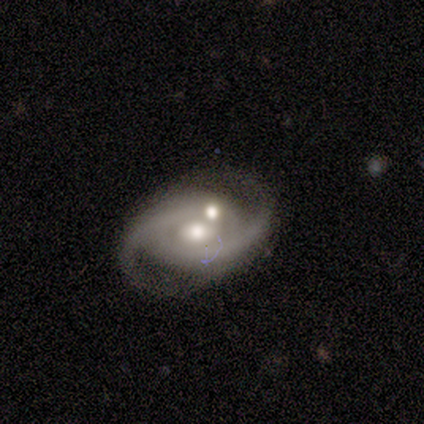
Q: Smooth or featured?
A: featured or disk (100%)
Q: Edge-on disk?
A: no (100%)
Q: Bar?
A: no (79%); runner-up: weak (14%)
Q: Spiral arms?
A: yes (100%)
Q: Spiral winding?
A: tight (36%); tied with: medium (36%)
Q: Spiral arm count?
A: 2 (100%)
Q: Bulge size?
A: moderate (86%); runner-up: large (7%)
Q: Merging?
A: none (50%); runner-up: major disturbance (21%)